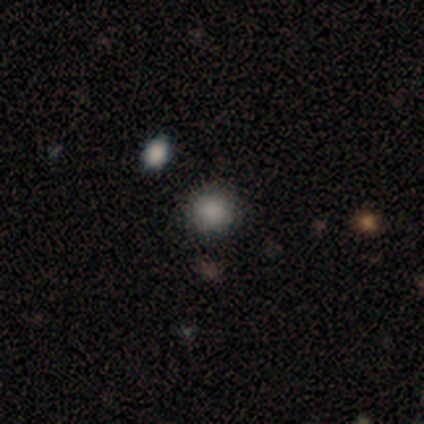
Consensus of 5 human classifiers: smooth-or-featured: smooth: 100% | featured or disk: 0% | star or artifact: 0%
  how-rounded: round: 100% | in between: 0% | cigar-shaped: 0%
  merging: none: 80% | merger: 20% | minor disturbance: 0% | major disturbance: 0%